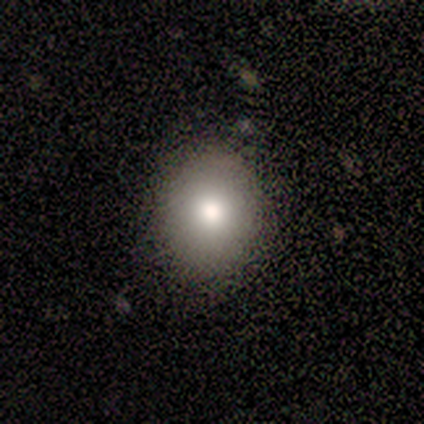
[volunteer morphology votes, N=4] This is likely a smooth galaxy (75%). How rounded: likely round (67%). Merging: clearly none (100%).